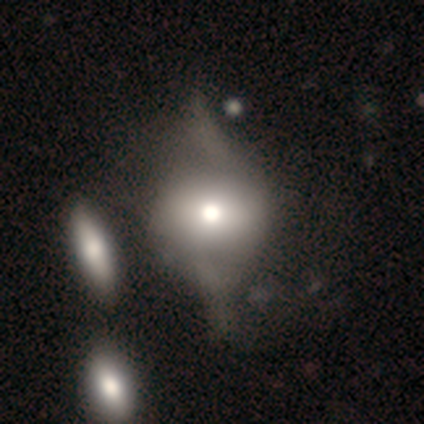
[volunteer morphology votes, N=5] smooth 100%, featured or disk 0%, star or artifact 0%. Down the decision tree: how rounded — round (80%); merging — major disturbance (80%).